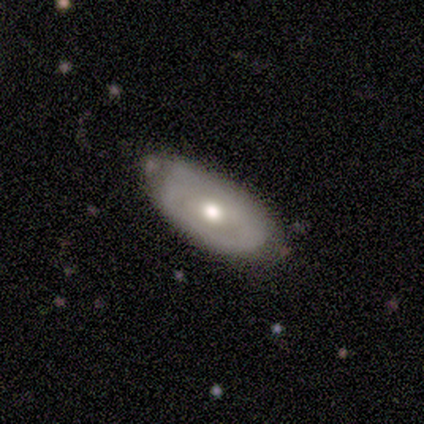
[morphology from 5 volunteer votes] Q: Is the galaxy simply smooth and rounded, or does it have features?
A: featured or disk — 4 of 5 (80%).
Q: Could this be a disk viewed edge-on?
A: no — 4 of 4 (100%).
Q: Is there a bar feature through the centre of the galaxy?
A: no — 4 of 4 (100%).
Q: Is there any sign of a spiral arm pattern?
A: no — 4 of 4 (100%).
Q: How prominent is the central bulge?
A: moderate — 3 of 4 (75%).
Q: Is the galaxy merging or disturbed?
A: none — 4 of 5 (80%).